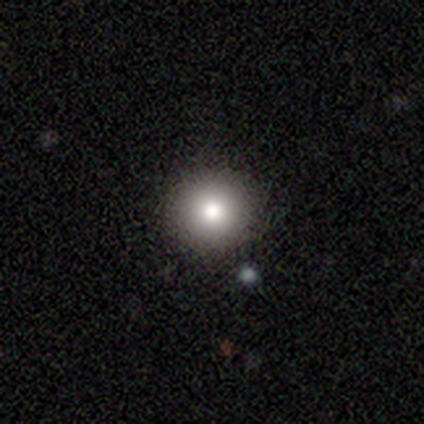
Morphology: type=smooth (83%); roundness=round (93%); merging=none (94%).